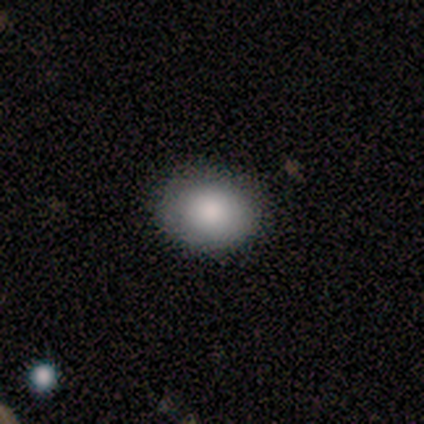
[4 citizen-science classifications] A smooth galaxy with no disk features (100%) that is round (75%). Merging: none (100%).